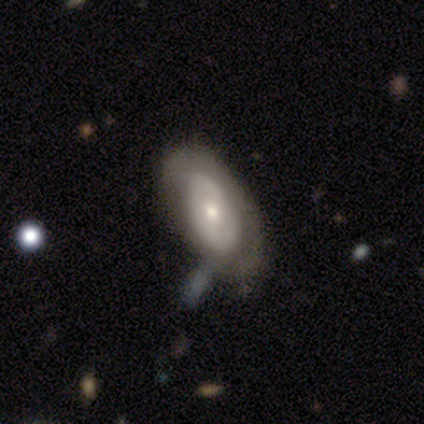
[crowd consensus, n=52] Smooth or featured?
  - featured or disk: 58% *
  - smooth: 35%
  - star or artifact: 8%
Edge-on disk?
  - no: 90% *
  - yes: 10%
Bar?
  - no: 78% *
  - weak: 22%
  - strong: 0%
Spiral arms?
  - no: 67% *
  - yes: 33%
Bulge size?
  - moderate: 56% *
  - small: 41%
  - large: 4%
  - dominant: 0%
  - none: 0%
Merging?
  - none: 52% *
  - minor disturbance: 27%
  - major disturbance: 15%
  - merger: 6%